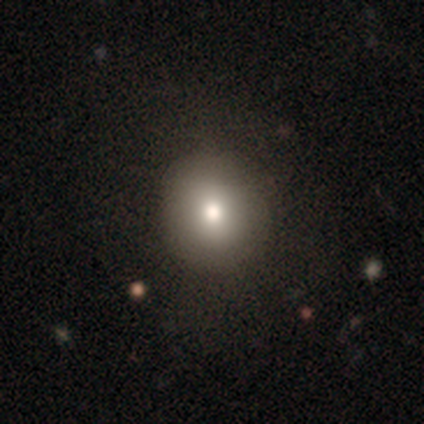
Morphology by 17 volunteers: smooth_or_featured: smooth (p=0.88) [alt: featured or disk p=0.06]
how_rounded: round (p=0.87) [alt: in between p=0.13]
merging: none (p=0.94) [alt: minor disturbance p=0.06]